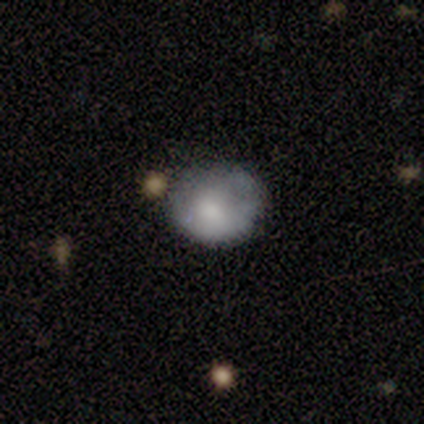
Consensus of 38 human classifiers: smooth-or-featured: smooth: 66% | featured or disk: 29% | star or artifact: 5%
  how-rounded: round: 68% | in between: 32% | cigar-shaped: 0%
  merging: minor disturbance: 44% | none: 36% | major disturbance: 11% | merger: 8%